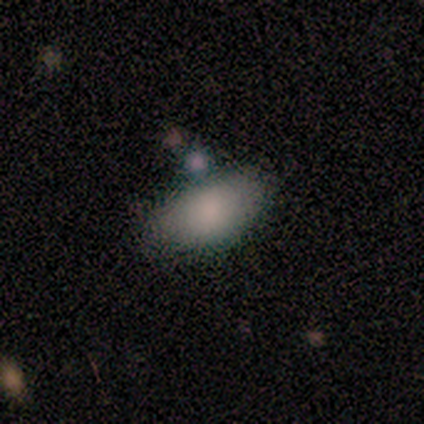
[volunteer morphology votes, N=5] Q: Smooth or featured?
A: smooth (100%)
Q: How rounded?
A: in between (80%); runner-up: round (20%)
Q: Merging?
A: none (40%); runner-up: minor disturbance (20%)